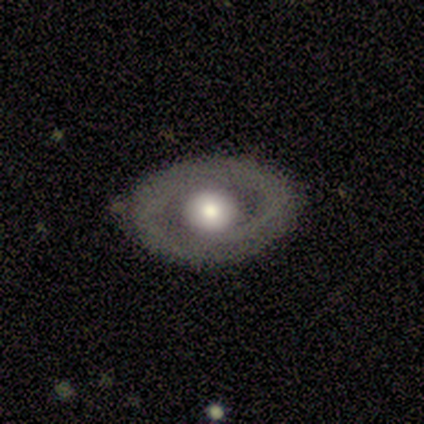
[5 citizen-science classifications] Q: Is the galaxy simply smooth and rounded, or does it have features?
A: featured or disk — 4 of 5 (80%).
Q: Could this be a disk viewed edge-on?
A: yes — 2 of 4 (50%, tied with no).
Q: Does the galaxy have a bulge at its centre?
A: rounded — 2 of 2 (100%).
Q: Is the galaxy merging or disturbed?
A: none — 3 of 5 (60%).